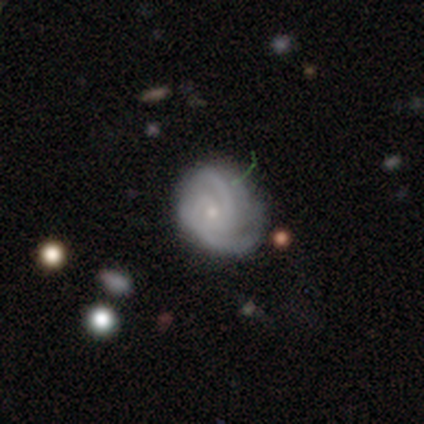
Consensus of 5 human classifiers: Smooth or featured?
  - featured or disk: 80% *
  - star or artifact: 20%
  - smooth: 0%
Edge-on disk?
  - no: 100% *
  - yes: 0%
Bar?
  - no: 100% *
  - strong: 0%
  - weak: 0%
Spiral arms?
  - yes: 100% *
  - no: 0%
Spiral winding?
  - medium: 75% *
  - tight: 25%
  - loose: 0%
Spiral arm count?
  - 4: 50% *
  - 2: 25%
  - can't tell: 25%
  - 1: 0%
  - 3: 0%
  - more than 4: 0%
Bulge size?
  - small: 100% *
  - dominant: 0%
  - large: 0%
  - moderate: 0%
  - none: 0%
Merging?
  - major disturbance: 75% *
  - minor disturbance: 25%
  - none: 0%
  - merger: 0%